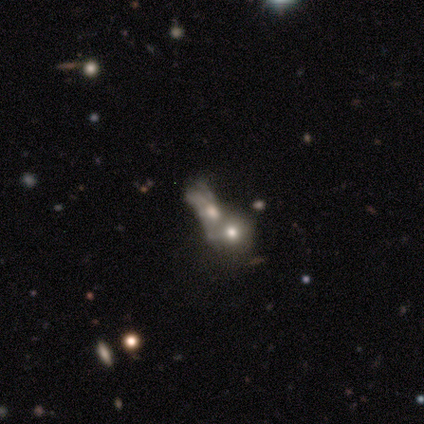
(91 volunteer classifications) Smooth or featured? smooth (44%)
How rounded? round (57%)
Merging? merger (81%)